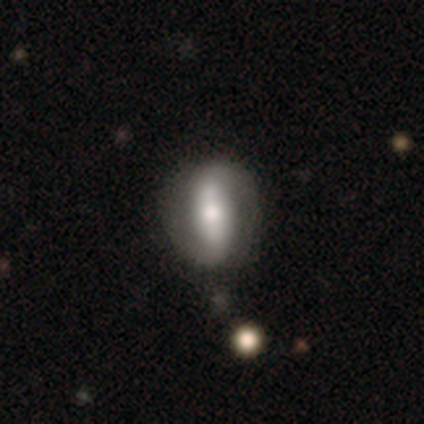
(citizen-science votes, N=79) A featured or disk galaxy (67%) with a strong bar (74%), 2 (97%) tight (43%) spiral arms (74%) and a moderate central bulge (64%).

Vote fractions:
- Smooth or featured? featured or disk: 67% / smooth: 33% / star or artifact: 0%
- Edge-on disk? no: 89% / yes: 11%
- Bar? strong: 74% / weak: 13% / no: 13%
- Spiral arms? yes: 74% / no: 26%
- Spiral winding? tight: 43% / loose: 37% / medium: 20%
- Spiral arm count? 2: 97% / can't tell: 3% / 1: 0% / 3: 0% / 4: 0% / more than 4: 0%
- Bulge size? moderate: 64% / large: 21% / small: 11% / dominant: 4% / none: 0%
- Merging? none: 38% / minor disturbance: 11% / merger: 3% / major disturbance: 0%